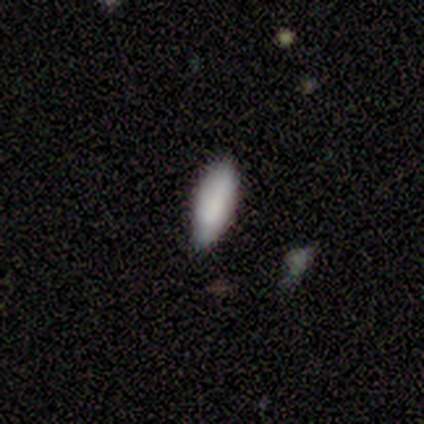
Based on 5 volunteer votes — This appears to be a smooth galaxy with no disk features (100%) that is in between round and cigar-shaped (80%). Merging: none (80%).